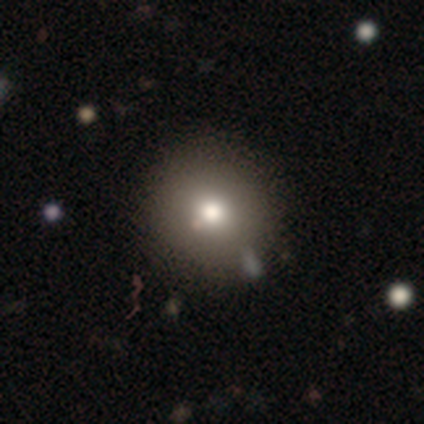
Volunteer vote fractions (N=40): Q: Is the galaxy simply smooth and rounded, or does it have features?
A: smooth — 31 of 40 (78%).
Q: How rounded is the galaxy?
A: round — 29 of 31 (94%).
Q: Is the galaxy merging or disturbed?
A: none — 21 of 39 (54%).